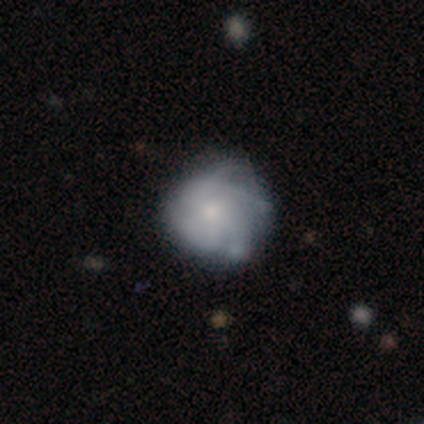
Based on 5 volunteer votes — smooth_or_featured: smooth (p=0.40) [tied with: featured or disk p=0.40]
how_rounded: round (p=1.00)
merging: none (p=0.50) [tied with: minor disturbance p=0.50]